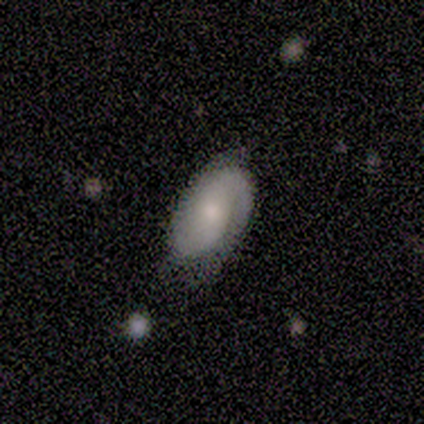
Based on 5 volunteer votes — Q: Smooth or featured?
A: featured or disk (60%); runner-up: smooth (40%)
Q: Edge-on disk?
A: no (100%)
Q: Bar?
A: no (100%)
Q: Spiral arms?
A: yes (100%)
Q: Spiral winding?
A: tight (67%); runner-up: loose (33%)
Q: Spiral arm count?
A: 2 (67%); runner-up: can't tell (33%)
Q: Bulge size?
A: moderate (67%); runner-up: none (33%)
Q: Merging?
A: none (60%); runner-up: minor disturbance (40%)